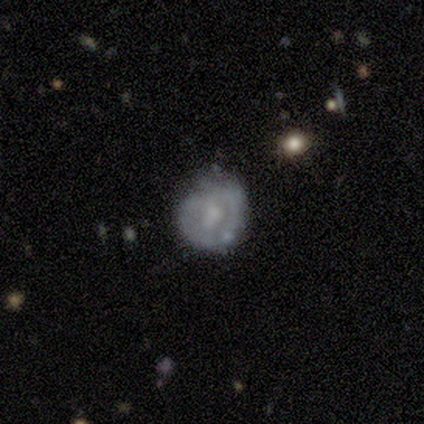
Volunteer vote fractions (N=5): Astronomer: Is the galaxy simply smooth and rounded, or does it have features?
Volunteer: featured or disk — 60% (runner-up: star or artifact, 40%).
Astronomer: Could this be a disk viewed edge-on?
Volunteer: no — 100%.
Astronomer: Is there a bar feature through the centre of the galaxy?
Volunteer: no — 100%.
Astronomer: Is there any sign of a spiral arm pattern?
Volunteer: no — 67%.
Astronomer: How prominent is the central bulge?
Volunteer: small — 67%.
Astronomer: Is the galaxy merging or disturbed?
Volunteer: none — 33%, tied with minor disturbance and major disturbance at 33%.